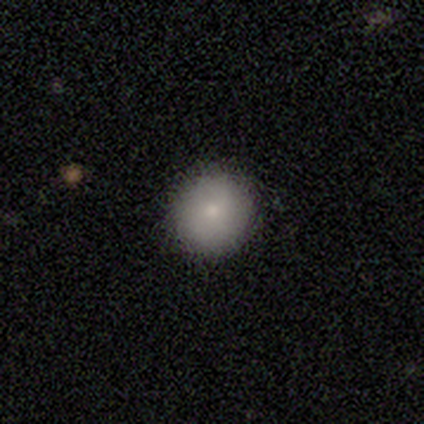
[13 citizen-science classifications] smooth-or-featured: smooth: 92% | star or artifact: 8% | featured or disk: 0%
  how-rounded: round: 100% | in between: 0% | cigar-shaped: 0%
  merging: none: 92% | minor disturbance: 8% | major disturbance: 0% | merger: 0%